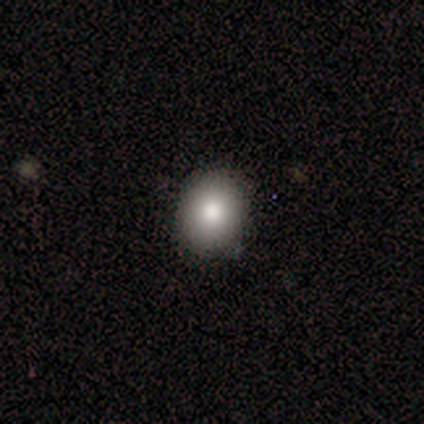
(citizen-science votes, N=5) This appears to be a smooth galaxy with no disk features (100%) that is round (80%). Merging: none (100%).